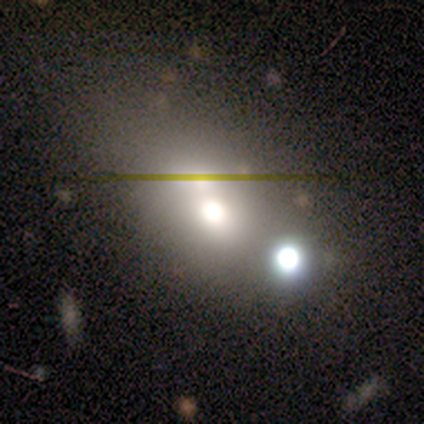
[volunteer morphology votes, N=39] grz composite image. It shows a smooth galaxy with no disk features (56%) that is in between round and cigar-shaped (77%). Merging: merger (58%).